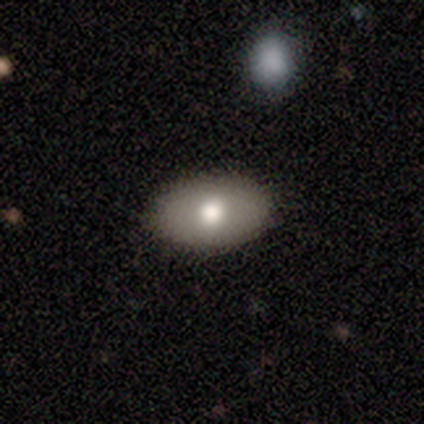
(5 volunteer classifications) Volunteers were most divided on "merging": none: 80%, minor disturbance: 20%, major disturbance: 0%, merger: 0%. More confident: smooth or featured — smooth (100%); how rounded — in between (100%).